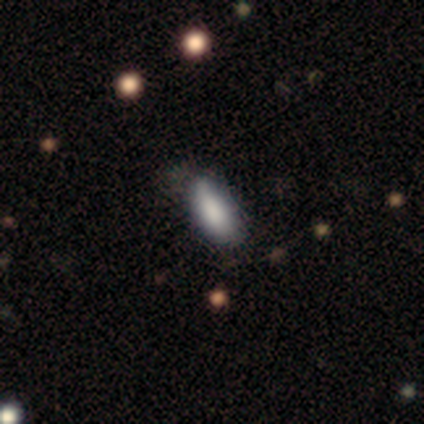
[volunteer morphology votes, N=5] This appears to be a smooth galaxy with no disk features (80%) that is in between round and cigar-shaped (50%, tied with cigar-shaped). Merging: none (80%).